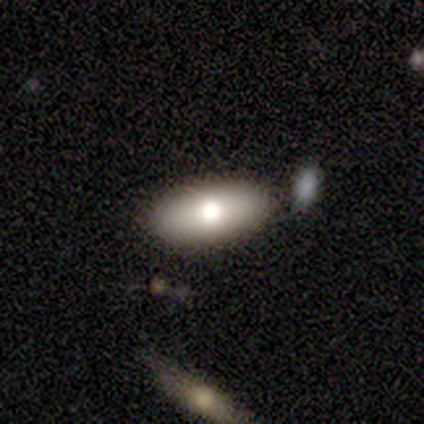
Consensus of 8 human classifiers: A smooth galaxy with no disk features (75%) that is in between round and cigar-shaped (100%).

Vote fractions:
- Smooth or featured? smooth: 75% / featured or disk: 25% / star or artifact: 0%
- How rounded? in between: 100% / round: 0% / cigar-shaped: 0%
- Merging? none: 88% / merger: 12% / minor disturbance: 0% / major disturbance: 0%